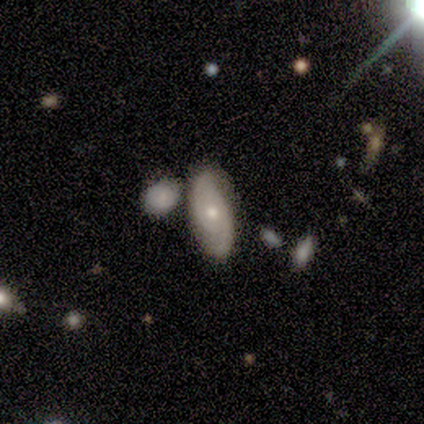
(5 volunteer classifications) Smooth or featured? featured or disk (80%)
Edge-on disk? no (100%)
Bar? weak (50%, tied with no)
Spiral arms? yes (100%)
Spiral winding? tight (75%)
Spiral arm count? 2 (75%)
Bulge size? small (75%)
Merging? none (100%)